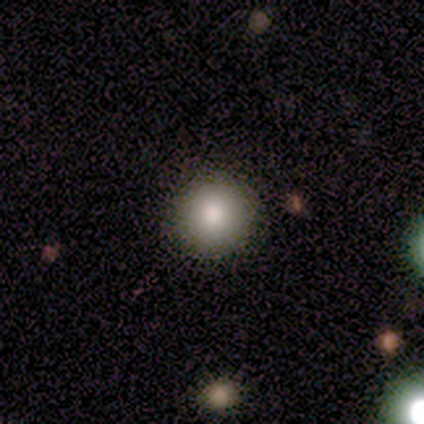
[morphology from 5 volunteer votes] Smooth or featured: smooth — 80% (featured or disk — 20%)
How rounded: round — 100%
Merging: none — 100%